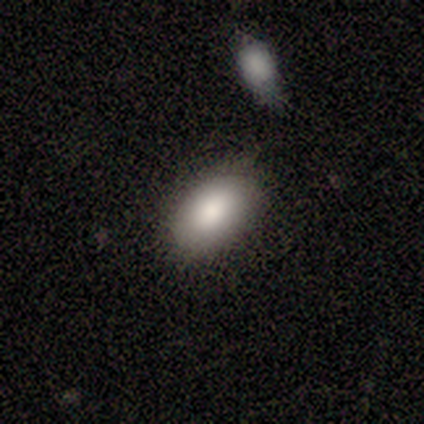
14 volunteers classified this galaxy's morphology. smooth 93%, star or artifact 7%, featured or disk 0%. Down the decision tree: how rounded — in between (92%); merging — none (69%).